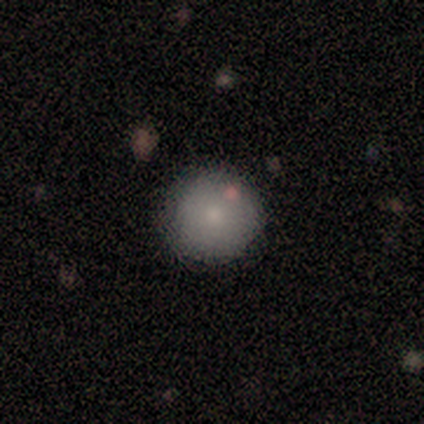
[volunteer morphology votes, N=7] A smooth galaxy with no disk features (86%) that is round (100%). Merging: none (86%).